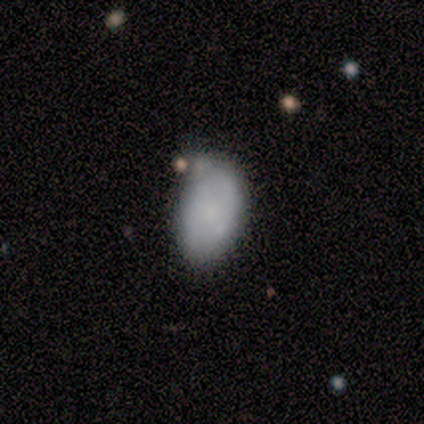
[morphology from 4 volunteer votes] This is clearly a smooth galaxy (100%). How rounded: clearly in between (100%). Merging: likely none (75%).